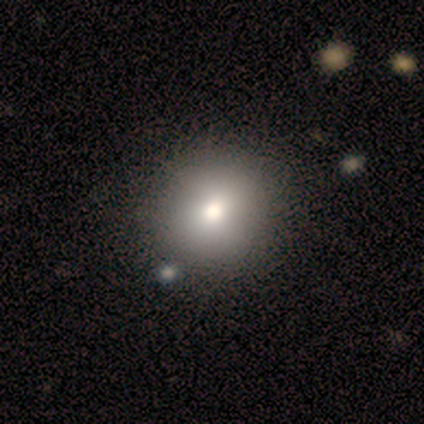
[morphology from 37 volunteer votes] Overall: smooth (76%). How rounded: round (93%). Merging: none (87%).